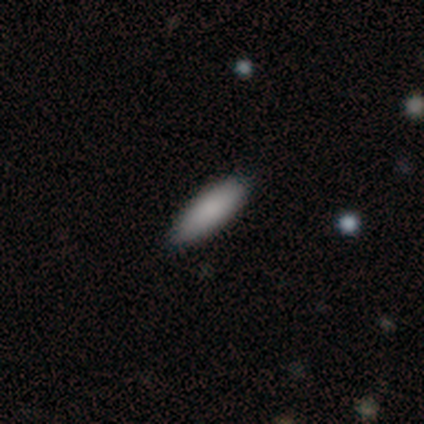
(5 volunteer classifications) Smooth or featured: smooth — 100%
How rounded: cigar-shaped — 60% (in between — 40%)
Merging: none — 100%